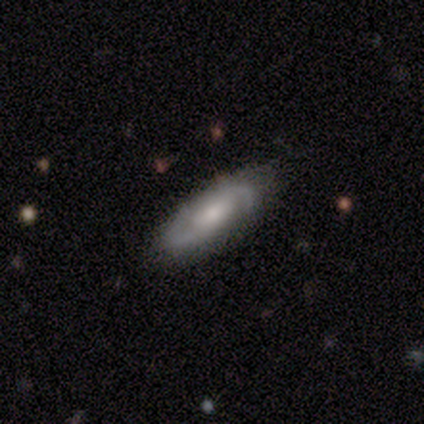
This is likely a featured or disk galaxy (63%). It is clearly not viewed edge-on (88%). Bar: possibly weak (52%). Spiral arm pattern: clearly yes (95%). Spiral arm count: clearly 2 (90%). Spiral winding: possibly medium (50%). Central bulge: marginally moderate (43%, tied with small). Merging: clearly none (81%).